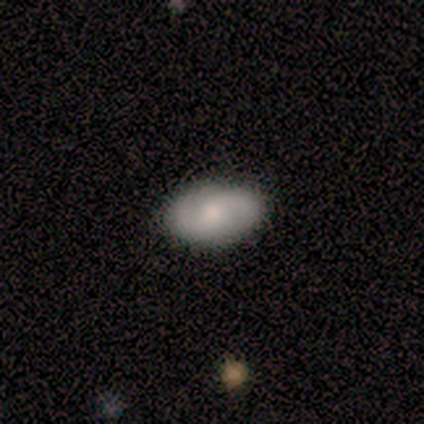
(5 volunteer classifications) Volunteers were most divided on "spiral winding" (2-way tie): medium: 50%, loose: 50%, tight: 0%. More confident: edge-on disk — no (100%); spiral arm count — 2 (100%); merging — none (80%); bar — no (67%); spiral arms — yes (67%); bulge size — small (67%); smooth or featured — featured or disk (60%).